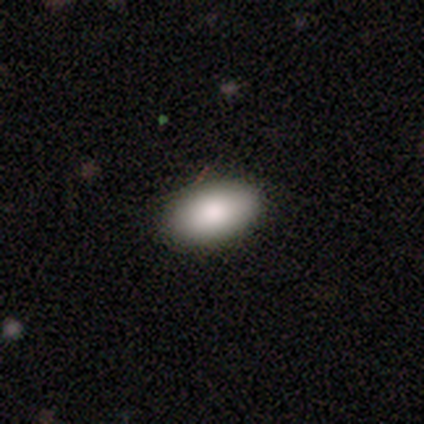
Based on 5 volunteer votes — A smooth galaxy with no disk features (80%) that is in between round and cigar-shaped (100%). Merging: none (80%).